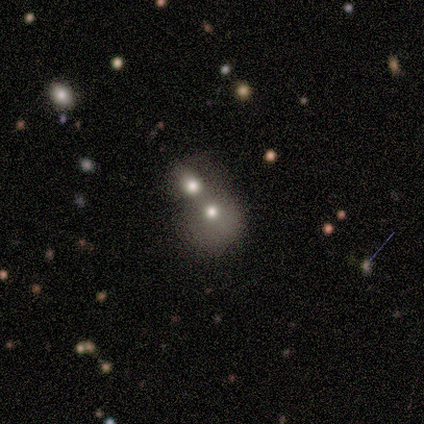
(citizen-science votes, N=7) smooth_or_featured: smooth (p=0.43) [tied with: featured or disk p=0.43]
how_rounded: round (p=0.67) [alt: in between p=0.33]
merging: merger (p=1.00)